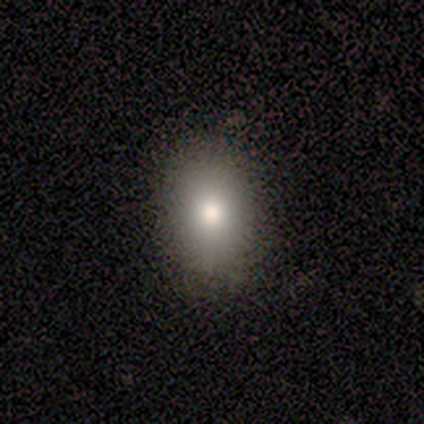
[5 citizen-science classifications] smooth_or_featured: smooth (p=1.00)
how_rounded: in between (p=0.60) [alt: round p=0.40]
merging: none (p=1.00)